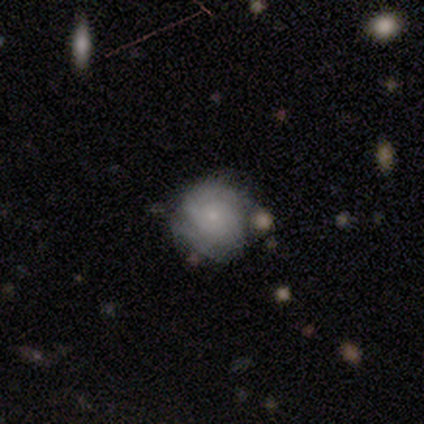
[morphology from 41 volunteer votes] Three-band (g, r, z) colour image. It shows a smooth galaxy with no disk features (54%) that is round (82%). Merging: none (42%, tied with minor disturbance).